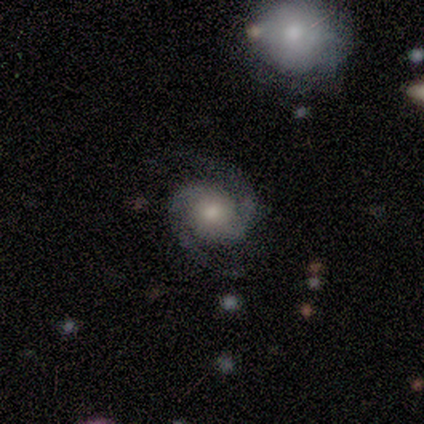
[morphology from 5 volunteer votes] Q: Smooth or featured?
A: featured or disk (100%)
Q: Edge-on disk?
A: no (100%)
Q: Bar?
A: no (100%)
Q: Spiral arms?
A: yes (100%)
Q: Spiral winding?
A: medium (100%)
Q: Spiral arm count?
A: 2 (100%)
Q: Bulge size?
A: moderate (80%); runner-up: small (20%)
Q: Merging?
A: none (80%); runner-up: minor disturbance (20%)